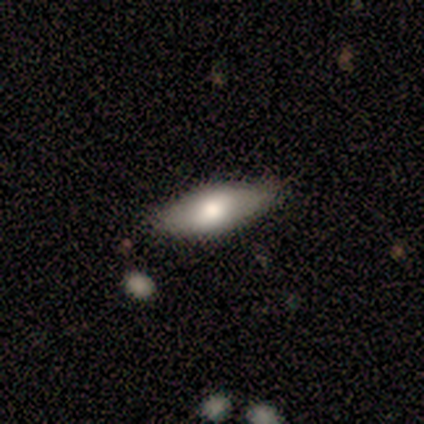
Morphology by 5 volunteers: smooth_or_featured: smooth (p=0.80) [alt: featured or disk p=0.20]
how_rounded: in between (p=0.75) [alt: round p=0.25]
merging: none (p=1.00)